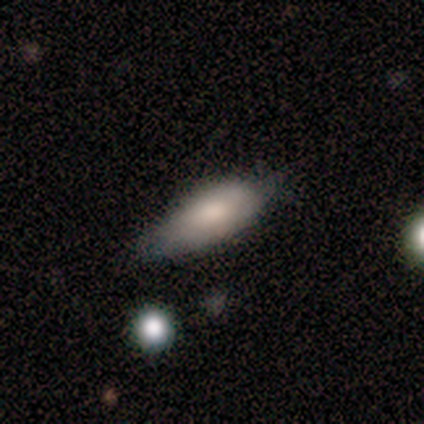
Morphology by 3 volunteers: A smooth galaxy with no disk features (67%) that is in between round and cigar-shaped (100%).

Vote fractions:
- Smooth or featured? smooth: 67% / featured or disk: 33% / star or artifact: 0%
- How rounded? in between: 100% / round: 0% / cigar-shaped: 0%
- Merging? minor disturbance: 100% / none: 0% / major disturbance: 0% / merger: 0%